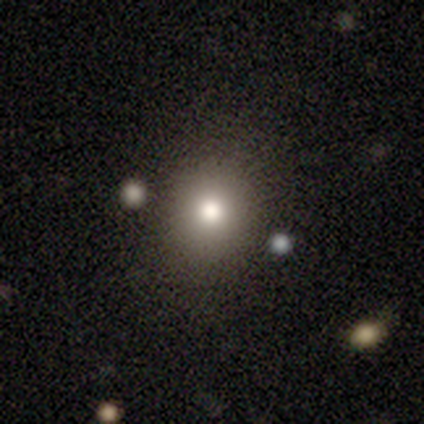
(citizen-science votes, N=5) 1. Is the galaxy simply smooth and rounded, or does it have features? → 40% smooth (tied), 40% featured or disk (tied), 20% star or artifact.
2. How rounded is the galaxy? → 100% round, 0% in between, 0% cigar-shaped.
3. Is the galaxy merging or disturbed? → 75% none, 25% minor disturbance, 0% major disturbance, 0% merger.